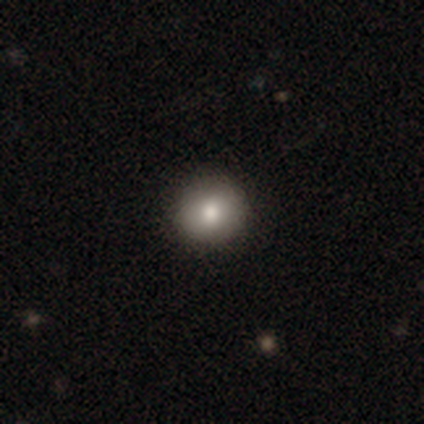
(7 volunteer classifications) Smooth or featured: smooth — 100%
How rounded: round — 100%
Merging: none — 100%